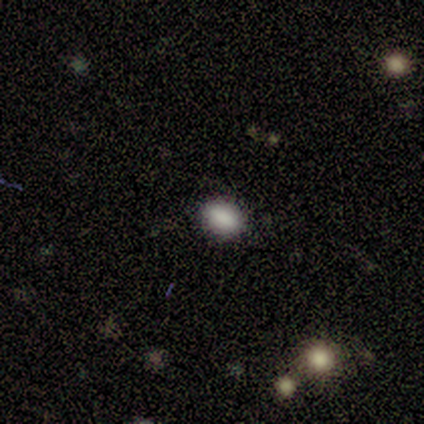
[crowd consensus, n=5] smooth 60%, featured or disk 20%, star or artifact 20%. Down the decision tree: how rounded — round (67%); merging — none (100%).